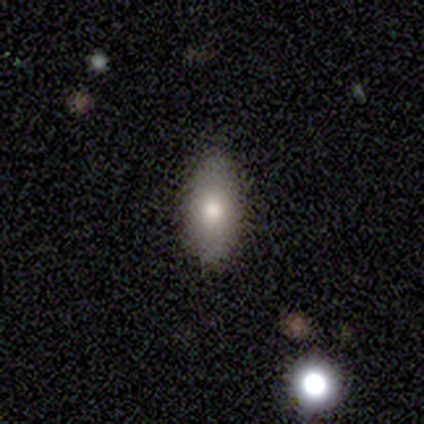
A smooth galaxy with no disk features (80%) that is in between round and cigar-shaped (100%). Merging: none (100%).